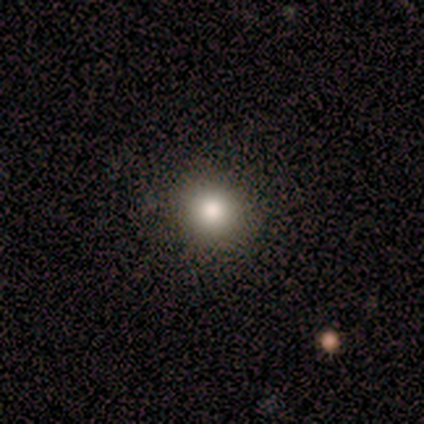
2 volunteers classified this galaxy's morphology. type=smooth (100%); roundness=round (100%); merging=none (100%).